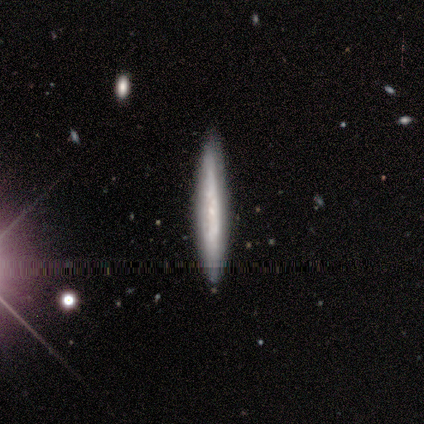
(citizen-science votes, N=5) smooth 60%, featured or disk 40%, star or artifact 0%. Down the decision tree: how rounded — cigar-shaped (100%); merging — none (60%).